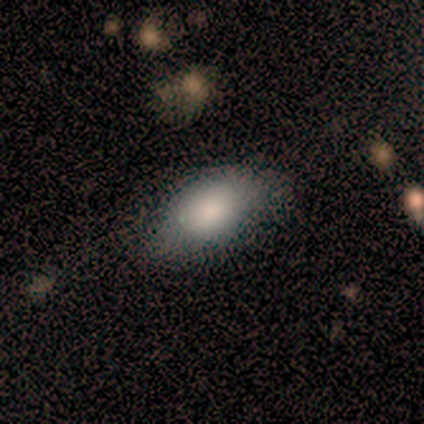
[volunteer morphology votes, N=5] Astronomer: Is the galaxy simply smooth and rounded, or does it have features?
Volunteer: smooth — 80%.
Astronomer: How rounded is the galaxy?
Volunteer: in between — 100%.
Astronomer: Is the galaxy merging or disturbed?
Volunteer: none — 50%.